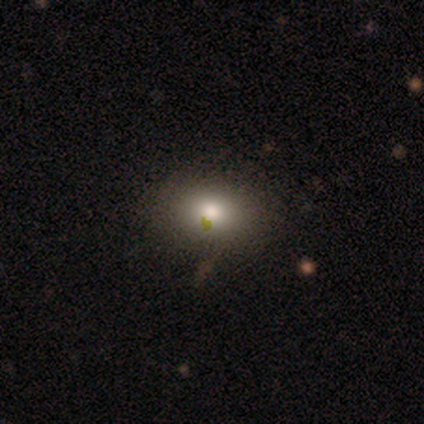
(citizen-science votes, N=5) A smooth galaxy with no disk features (80%) that is round (50%, tied with in between).

Vote fractions:
- Smooth or featured? smooth: 80% / star or artifact: 20% / featured or disk: 0%
- How rounded? round: 50% (tied) / in between: 50% (tied) / cigar-shaped: 0%
- Merging? none: 75% / minor disturbance: 25% / major disturbance: 0% / merger: 0%